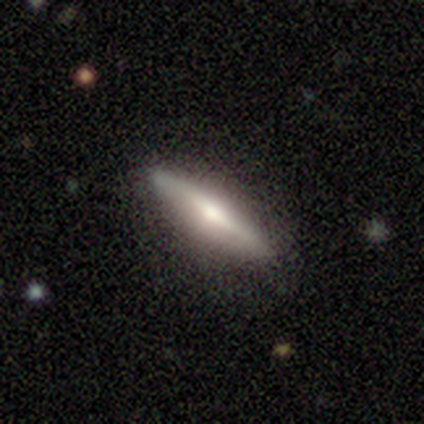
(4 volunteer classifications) A featured or disk galaxy (75%) viewed edge-on (67%) with no central bulge (50%, tied with rounded).

Vote fractions:
- Smooth or featured? featured or disk: 75% / smooth: 25% / star or artifact: 0%
- Edge-on disk? yes: 67% / no: 33%
- Edge-on bulge? none: 50% (tied) / rounded: 50% (tied) / boxy: 0%
- Merging? none: 75% / minor disturbance: 25% / major disturbance: 0% / merger: 0%